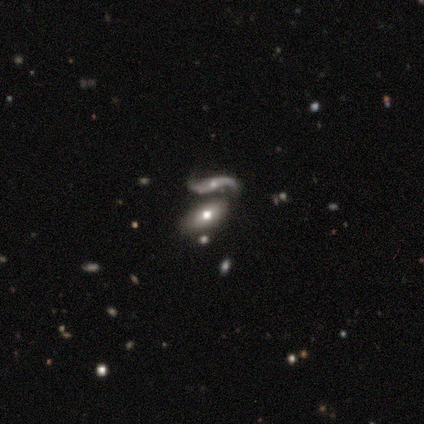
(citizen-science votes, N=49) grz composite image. It shows a smooth galaxy with no disk features (47%) that is in between round and cigar-shaped (100%). Merging: merger (40%).